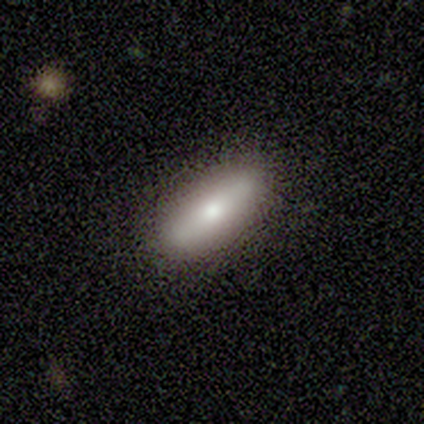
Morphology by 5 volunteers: Smooth or featured: smooth — 60% (featured or disk — 20%)
How rounded: cigar-shaped — 67% (in between — 33%)
Merging: none — 100%